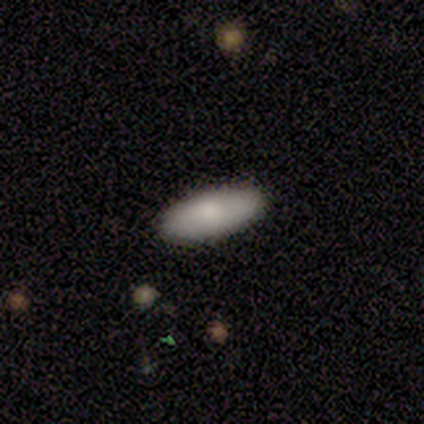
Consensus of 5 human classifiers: Volunteers were most divided on "how rounded": in between: 80%, cigar-shaped: 20%, round: 0%. More confident: smooth or featured — smooth (100%); merging — none (100%).